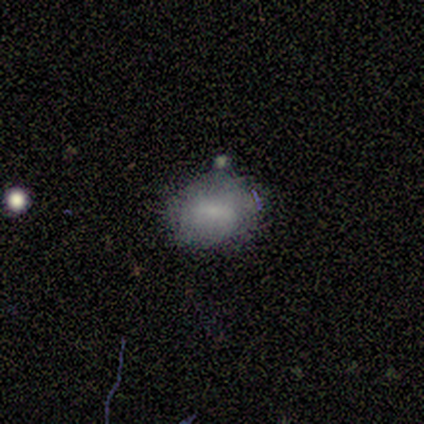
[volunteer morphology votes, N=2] This is possibly a smooth galaxy (50%, tied with star or artifact). How rounded: clearly in between (100%). Merging: clearly minor disturbance (100%).